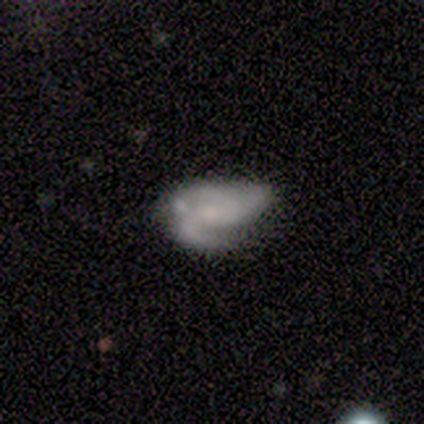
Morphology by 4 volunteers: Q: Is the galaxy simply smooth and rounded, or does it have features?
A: featured or disk — 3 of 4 (75%).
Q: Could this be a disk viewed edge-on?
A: no — 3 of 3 (100%).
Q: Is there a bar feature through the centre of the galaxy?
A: strong — 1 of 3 (33%, tied with weak and no).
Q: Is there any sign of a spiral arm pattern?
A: yes — 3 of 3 (100%).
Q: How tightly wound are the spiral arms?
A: medium — 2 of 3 (67%).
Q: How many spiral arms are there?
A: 2 — 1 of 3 (33%, tied with 3 and can't tell).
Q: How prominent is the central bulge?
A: none — 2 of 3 (67%).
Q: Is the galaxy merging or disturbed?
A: none — 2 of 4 (50%, tied with minor disturbance).